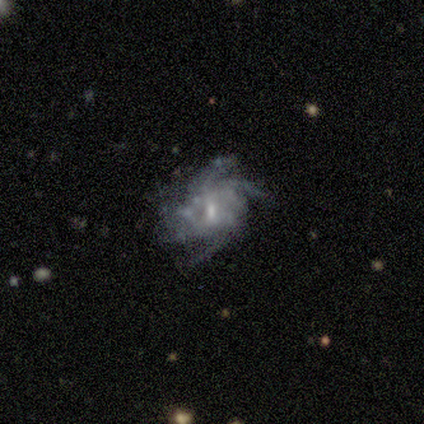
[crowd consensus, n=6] Smooth or featured?
  - featured or disk: 83% *
  - smooth: 17%
  - star or artifact: 0%
Edge-on disk?
  - no: 100% *
  - yes: 0%
Bar?
  - no: 60% *
  - weak: 40%
  - strong: 0%
Spiral arms?
  - yes: 100% *
  - no: 0%
Spiral winding?
  - tight: 40% * (tied)
  - medium: 40% * (tied)
  - loose: 20%
Spiral arm count?
  - 4: 60% *
  - can't tell: 40%
  - 1: 0%
  - 2: 0%
  - 3: 0%
  - more than 4: 0%
Bulge size?
  - small: 60% *
  - moderate: 40%
  - dominant: 0%
  - large: 0%
  - none: 0%
Merging?
  - none: 100% *
  - minor disturbance: 0%
  - major disturbance: 0%
  - merger: 0%